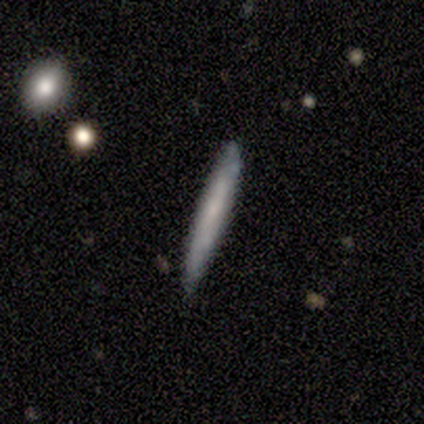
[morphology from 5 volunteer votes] type=smooth (100%); roundness=cigar-shaped (100%); merging=none (80%).